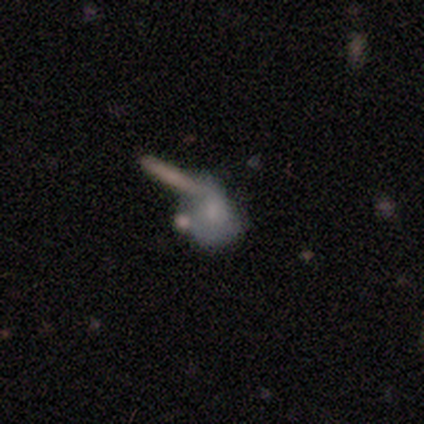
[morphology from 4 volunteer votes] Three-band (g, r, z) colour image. It shows a featured or disk galaxy (50%) with no bar (100%), no spiral arms (100%) and a moderate central bulge (50%, tied with none). Merging: none (67%).